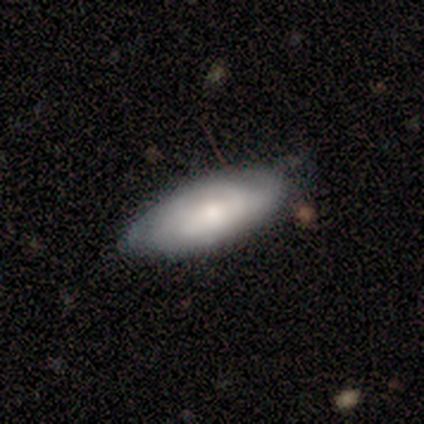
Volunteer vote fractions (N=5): featured or disk 80%, smooth 20%, star or artifact 0%. Down the decision tree: edge-on disk — no (100%); bar — no (75%); spiral arms — yes (75%); spiral arm count — can't tell (67%); spiral winding — tight (100%); bulge size — small (75%); merging — none (60%).